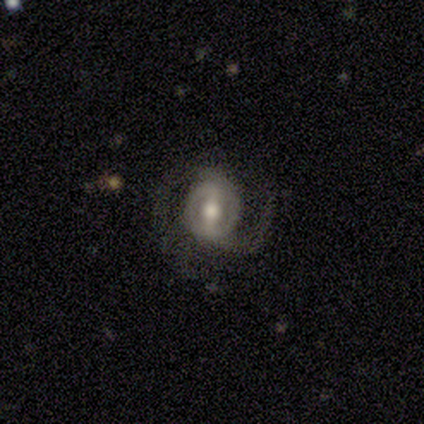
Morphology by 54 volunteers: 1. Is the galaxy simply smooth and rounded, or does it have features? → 94% featured or disk, 4% star or artifact, 2% smooth.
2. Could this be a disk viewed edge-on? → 98% no, 2% yes.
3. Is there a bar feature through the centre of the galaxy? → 56% strong, 36% weak, 8% no.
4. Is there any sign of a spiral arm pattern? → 96% yes, 4% no.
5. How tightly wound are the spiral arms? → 50% medium, 31% loose, 19% tight.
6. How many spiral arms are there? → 88% 2, 12% can't tell, 0% 1, 0% 3, 0% 4, 0% more than 4.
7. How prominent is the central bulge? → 90% moderate, 8% small, 2% large, 0% dominant, 0% none.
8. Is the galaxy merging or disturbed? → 73% none, 13% minor disturbance, 13% major disturbance, 0% merger.